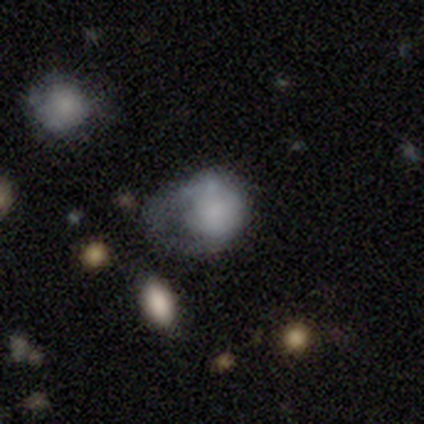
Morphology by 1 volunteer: type=featured or disk (100%); edge-on=no (100%); bar=no (100%); spiral arms=no (100%); bulge=large (100%); merging=major disturbance (100%).